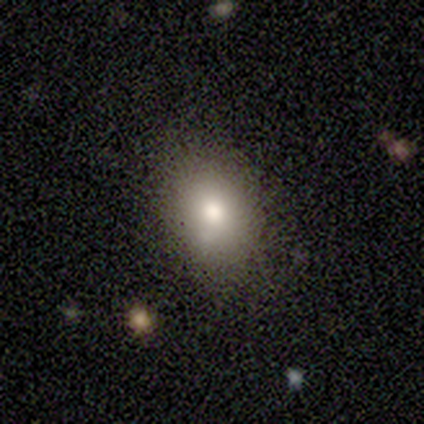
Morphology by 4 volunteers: Q: Smooth or featured?
A: smooth (100%)
Q: How rounded?
A: in between (75%); runner-up: round (25%)
Q: Merging?
A: none (75%); runner-up: minor disturbance (25%)